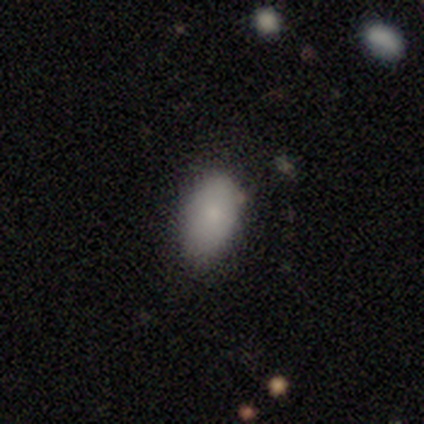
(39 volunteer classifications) This is likely a smooth galaxy (79%). How rounded: clearly in between (94%). Merging: clearly none (81%).